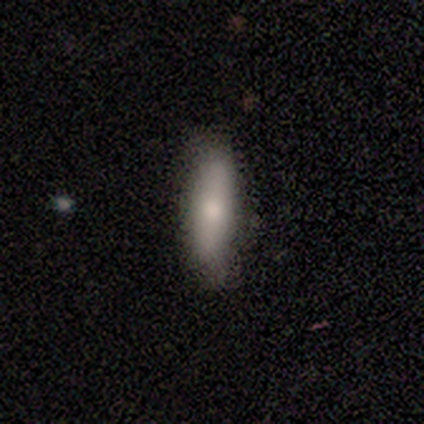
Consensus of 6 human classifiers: smooth 83%, featured or disk 17%, star or artifact 0%. Down the decision tree: how rounded — cigar-shaped (80%); merging — none (100%).